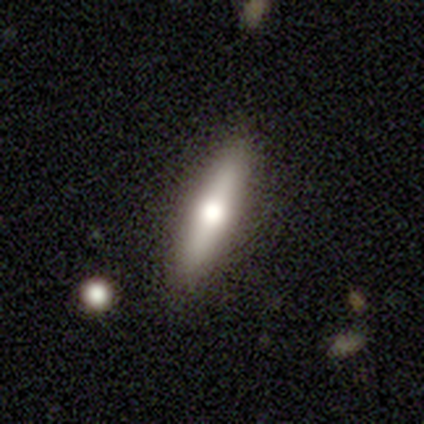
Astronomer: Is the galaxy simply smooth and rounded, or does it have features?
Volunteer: featured or disk — 75%.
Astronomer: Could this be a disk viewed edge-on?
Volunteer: yes — 100%.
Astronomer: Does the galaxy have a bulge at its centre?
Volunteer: rounded — 100%.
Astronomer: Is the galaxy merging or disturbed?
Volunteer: none — 100%.